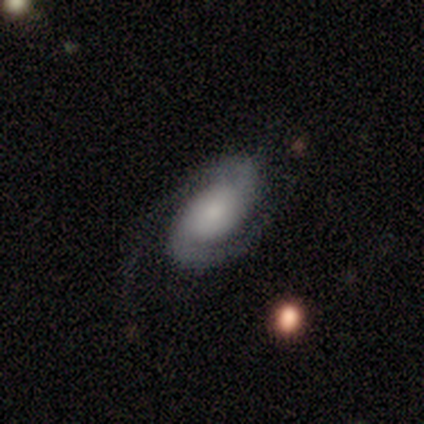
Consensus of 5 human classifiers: This is clearly a featured or disk galaxy (80%). It is clearly not viewed edge-on (100%). Bar: likely no (75%). Spiral arm pattern: likely yes (75%). Spiral arm count: clearly 2 (100%). Spiral winding: likely medium (67%). Central bulge: possibly large (50%). Merging: clearly none (80%).